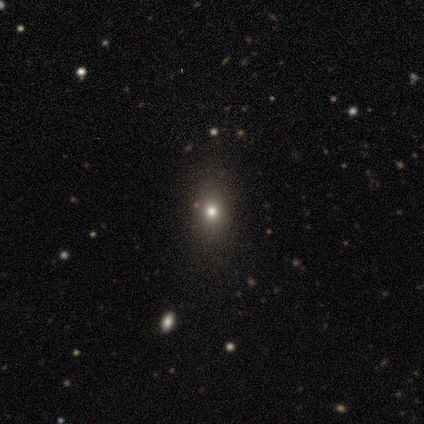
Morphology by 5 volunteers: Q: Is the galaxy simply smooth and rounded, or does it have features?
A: smooth — 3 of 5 (60%).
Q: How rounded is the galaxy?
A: in between — 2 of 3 (67%).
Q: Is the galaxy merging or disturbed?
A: none — 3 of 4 (75%).